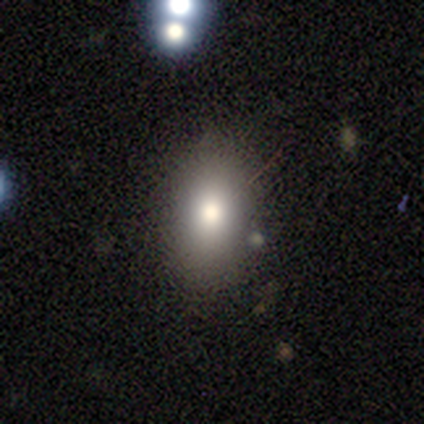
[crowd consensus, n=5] smooth_or_featured: smooth (p=0.80) [alt: featured or disk p=0.20]
how_rounded: in between (p=0.50) [alt: round p=0.25]
merging: none (p=1.00)